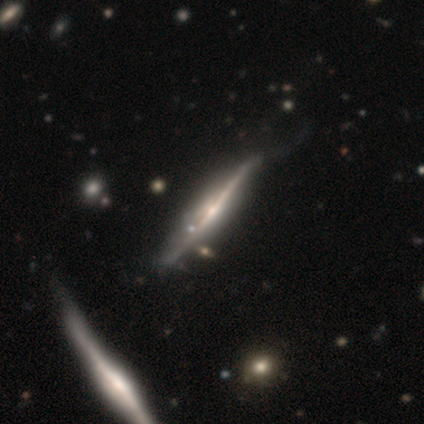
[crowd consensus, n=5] smooth_or_featured: featured or disk (p=0.80) [alt: star or artifact p=0.20]
disk_edge_on: yes (p=1.00)
edge_on_bulge: rounded (p=0.75) [alt: none p=0.25]
merging: none (p=0.50) [alt: minor disturbance p=0.25]